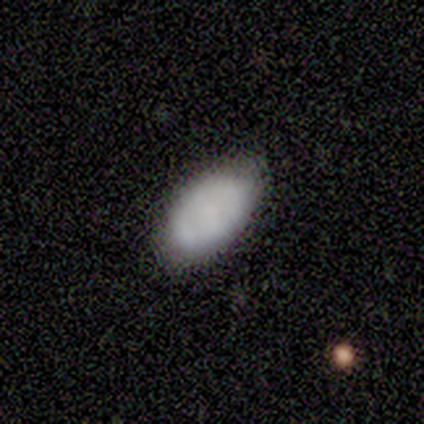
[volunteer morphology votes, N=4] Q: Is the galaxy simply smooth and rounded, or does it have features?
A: smooth — 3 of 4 (75%).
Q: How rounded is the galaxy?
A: in between — 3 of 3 (100%).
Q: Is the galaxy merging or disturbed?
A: none — 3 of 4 (75%).